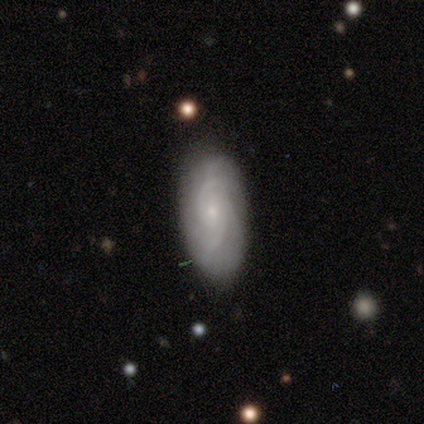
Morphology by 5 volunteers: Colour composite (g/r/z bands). It shows a featured or disk galaxy (60%) with no bar (100%), 3 (67%) medium (67%) spiral arms (100%) and a small central bulge (100%). Merging: none (60%).